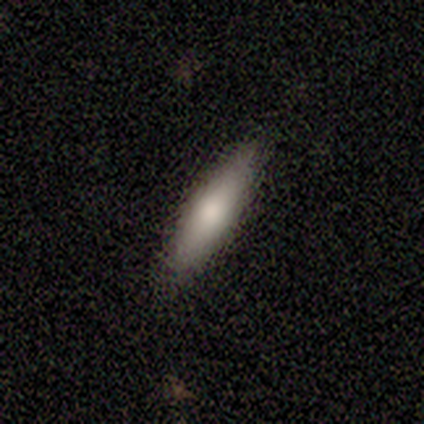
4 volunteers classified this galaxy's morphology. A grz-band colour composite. It shows a smooth galaxy with no disk features (75%) that is cigar-shaped (67%). Merging: none (100%).